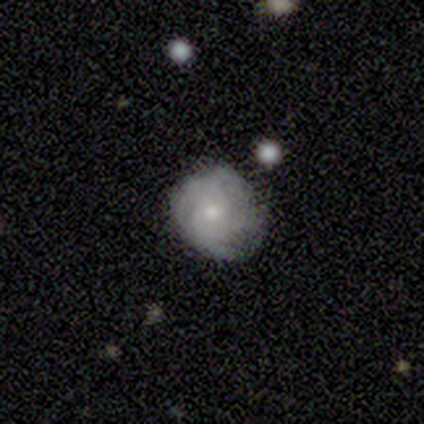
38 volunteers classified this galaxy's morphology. A featured or disk galaxy (63%) with no bar (83%), tight (59%) spiral arms (92%) and a small central bulge (58%).

Vote fractions:
- Smooth or featured? featured or disk: 63% / smooth: 29% / star or artifact: 8%
- Edge-on disk? no: 100% / yes: 0%
- Bar? no: 83% / weak: 17% / strong: 0%
- Spiral arms? yes: 92% / no: 8%
- Spiral winding? tight: 59% / medium: 27% / loose: 14%
- Spiral arm count? can't tell: 45% / 3: 27% / 4: 23% / 2: 5% / 1: 0% / more than 4: 0%
- Bulge size? small: 58% / moderate: 38% / large: 4% / dominant: 0% / none: 0%
- Merging? none: 80% / minor disturbance: 20% / major disturbance: 0% / merger: 0%